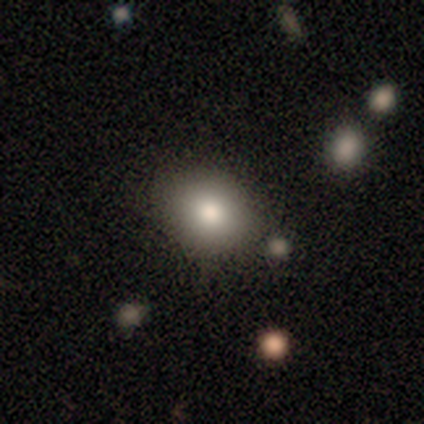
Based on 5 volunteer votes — This is marginally a featured or disk galaxy (40%, tied with star or artifact). It is clearly not viewed edge-on (100%). Bar: clearly no (100%). Spiral arm pattern: clearly no (100%). Central bulge: possibly moderate (50%, tied with small). Merging: clearly none (100%).